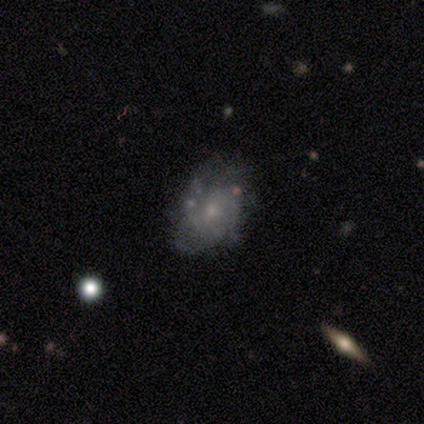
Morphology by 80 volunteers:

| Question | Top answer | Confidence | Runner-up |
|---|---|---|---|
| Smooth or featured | featured or disk | 69% | smooth (22%) |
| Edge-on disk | no | 100% | — |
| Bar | no | 75% | weak (24%) |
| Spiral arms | yes | 78% | no (22%) |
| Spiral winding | tight | 60% | medium (23%) |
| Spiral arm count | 2 | 30% | tied: 3 (30%) |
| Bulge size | small | 73% | moderate (25%) |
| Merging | none | 48% | minor disturbance (33%) |